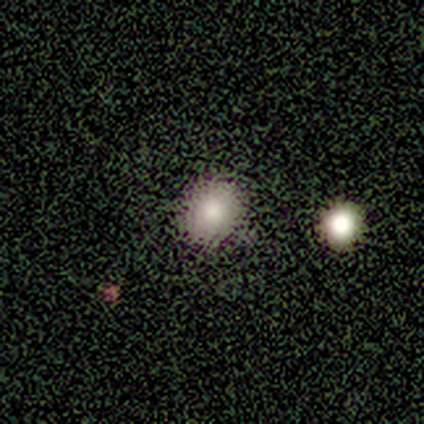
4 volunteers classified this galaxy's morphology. smooth 100%, featured or disk 0%, star or artifact 0%. Down the decision tree: how rounded — round (75%); merging — none (100%).